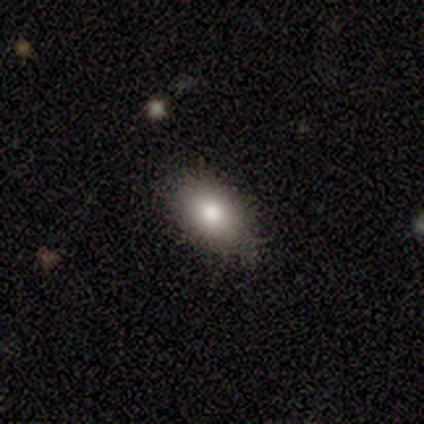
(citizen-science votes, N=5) This is clearly a smooth galaxy (100%). How rounded: clearly in between (100%). Merging: clearly none (100%).